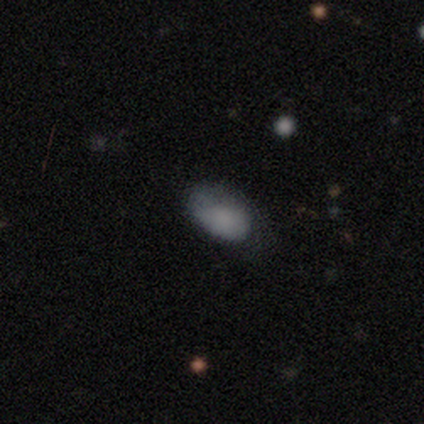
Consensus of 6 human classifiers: Smooth or featured: smooth — 50% (star or artifact — 33%)
How rounded: in between — 100%
Merging: none — 50% (tied with minor disturbance — 50%)